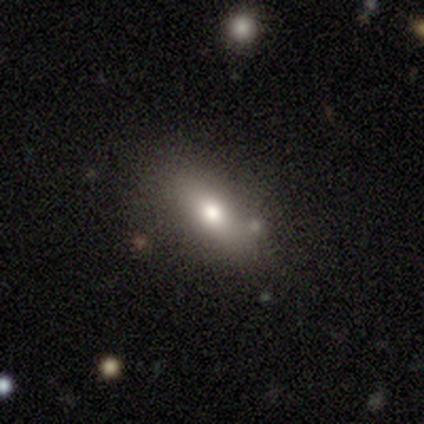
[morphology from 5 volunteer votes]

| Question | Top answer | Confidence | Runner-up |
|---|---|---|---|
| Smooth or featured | smooth | 100% | — |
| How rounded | in between | 60% | cigar-shaped (40%) |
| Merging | none | 100% | — |